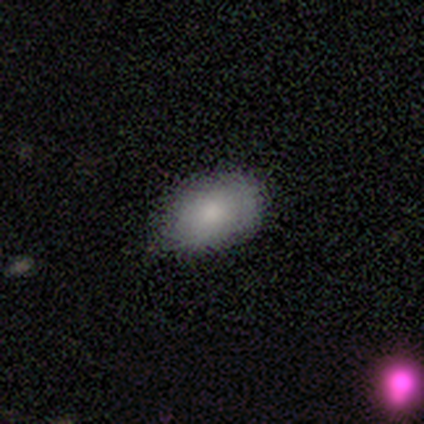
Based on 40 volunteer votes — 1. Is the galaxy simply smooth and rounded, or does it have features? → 88% smooth, 8% featured or disk, 5% star or artifact.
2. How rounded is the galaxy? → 91% in between, 9% round, 0% cigar-shaped.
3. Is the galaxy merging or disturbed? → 58% none, 37% minor disturbance, 5% major disturbance, 0% merger.